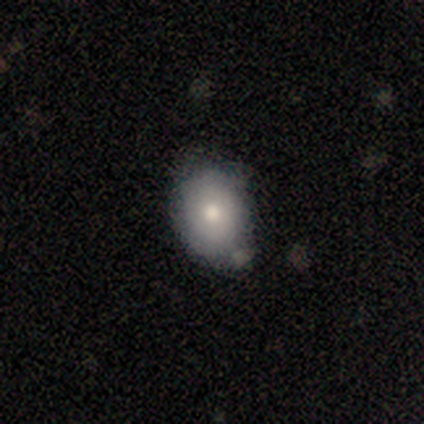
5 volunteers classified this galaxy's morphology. Volunteers were most divided on "how rounded": in between: 75%, round: 25%, cigar-shaped: 0%. More confident: smooth or featured — smooth (80%); merging — none (80%).